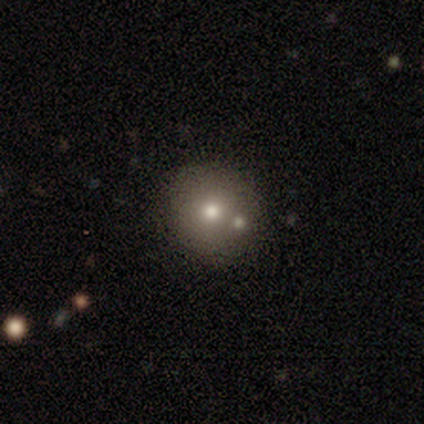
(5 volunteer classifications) Smooth or featured? smooth (80%)
How rounded? round (100%)
Merging? none (100%)